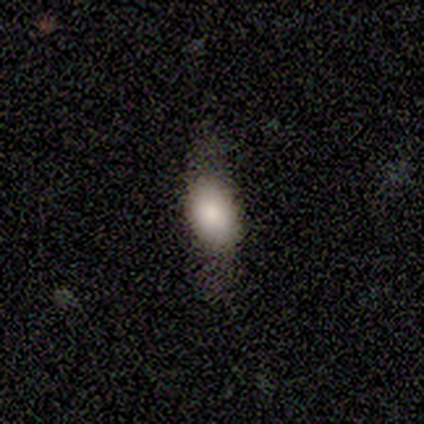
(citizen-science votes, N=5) A featured or disk galaxy (60%) viewed edge-on (67%) with a rounded central bulge (100%).

Vote fractions:
- Smooth or featured? featured or disk: 60% / smooth: 40% / star or artifact: 0%
- Edge-on disk? yes: 67% / no: 33%
- Edge-on bulge? rounded: 100% / boxy: 0% / none: 0%
- Merging? none: 60% / minor disturbance: 40% / major disturbance: 0% / merger: 0%